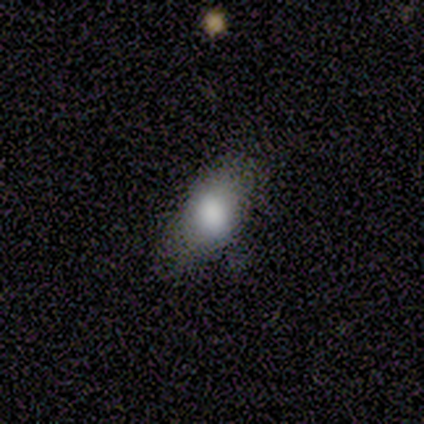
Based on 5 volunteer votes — This is clearly a smooth galaxy (80%). How rounded: clearly in between (100%). Merging: likely none (60%).